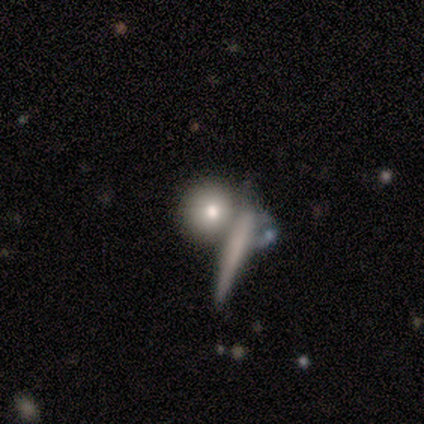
smooth_or_featured: smooth (p=0.50) [tied with: featured or disk p=0.50]
how_rounded: round (p=1.00)
merging: none (p=0.50) [alt: minor disturbance p=0.25]